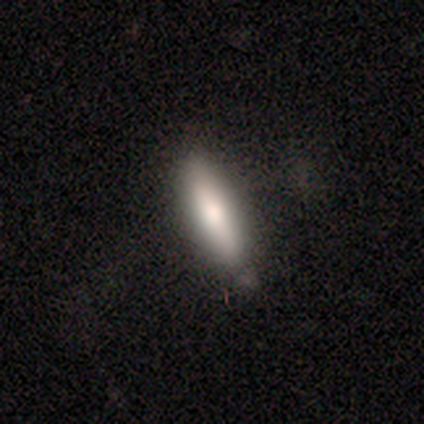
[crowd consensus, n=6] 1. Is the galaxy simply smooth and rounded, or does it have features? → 83% smooth, 17% featured or disk, 0% star or artifact.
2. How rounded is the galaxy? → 100% cigar-shaped, 0% round, 0% in between.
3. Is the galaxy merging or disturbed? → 100% none, 0% minor disturbance, 0% major disturbance, 0% merger.